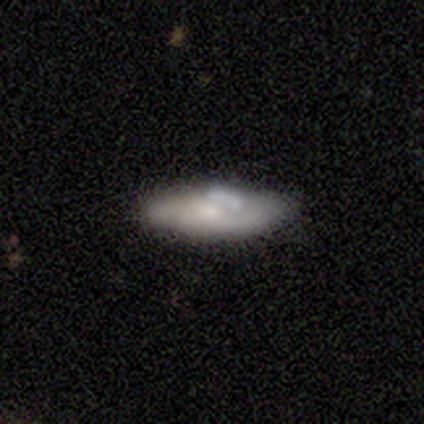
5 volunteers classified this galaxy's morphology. Smooth or featured?
  - featured or disk: 80% *
  - smooth: 20%
  - star or artifact: 0%
Edge-on disk?
  - no: 75% *
  - yes: 25%
Bar?
  - no: 100% *
  - strong: 0%
  - weak: 0%
Spiral arms?
  - no: 100% *
  - yes: 0%
Bulge size?
  - small: 67% *
  - moderate: 33%
  - dominant: 0%
  - large: 0%
  - none: 0%
Merging?
  - none: 100% *
  - minor disturbance: 0%
  - major disturbance: 0%
  - merger: 0%